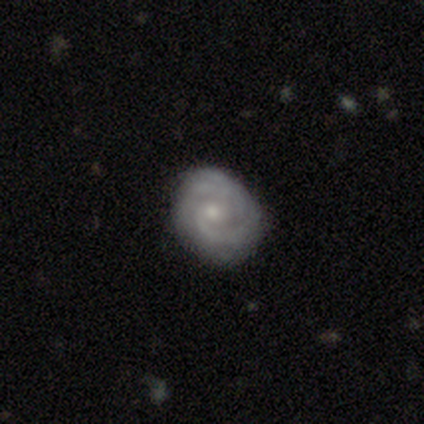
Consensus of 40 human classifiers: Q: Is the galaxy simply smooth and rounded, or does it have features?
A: featured or disk — 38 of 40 (95%).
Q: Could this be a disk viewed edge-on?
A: no — 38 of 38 (100%).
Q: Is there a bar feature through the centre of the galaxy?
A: no — 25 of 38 (66%).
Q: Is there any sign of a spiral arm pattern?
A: yes — 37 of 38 (97%).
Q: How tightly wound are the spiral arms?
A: tight — 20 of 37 (54%).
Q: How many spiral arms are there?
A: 2 — 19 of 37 (51%).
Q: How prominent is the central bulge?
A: moderate — 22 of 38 (58%).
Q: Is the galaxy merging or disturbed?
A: none — 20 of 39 (51%).